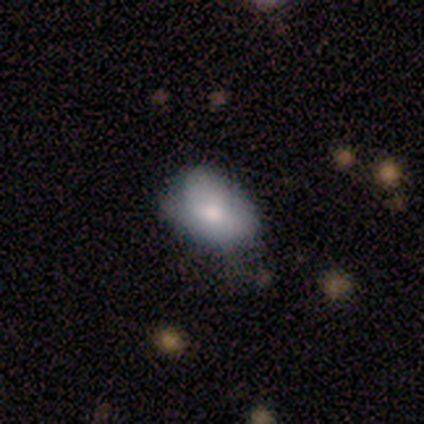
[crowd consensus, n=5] Smooth or featured?
  - smooth: 60% *
  - featured or disk: 40%
  - star or artifact: 0%
How rounded?
  - in between: 100% *
  - round: 0%
  - cigar-shaped: 0%
Merging?
  - minor disturbance: 60% *
  - none: 20%
  - major disturbance: 20%
  - merger: 0%